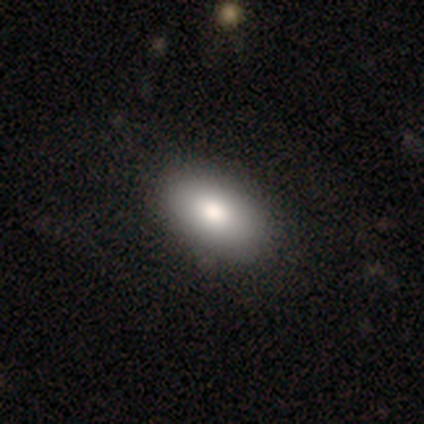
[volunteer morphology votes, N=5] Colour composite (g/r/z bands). It shows a smooth galaxy with no disk features (80%) that is in between round and cigar-shaped (100%). Merging: none (75%).